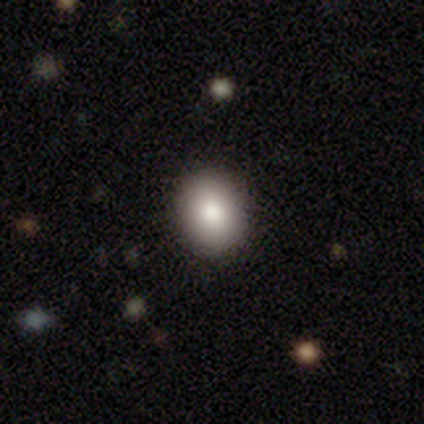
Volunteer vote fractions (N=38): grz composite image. It shows a smooth galaxy with no disk features (87%) that is round (52%). Merging: none (92%).